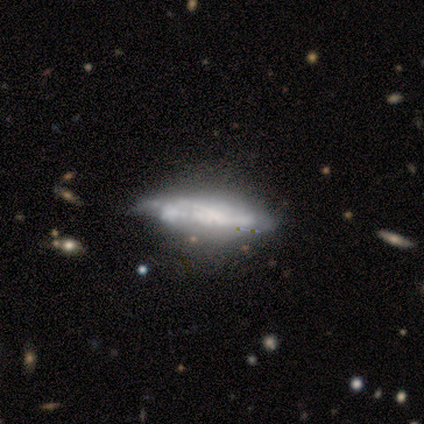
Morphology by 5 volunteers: smooth_or_featured: featured or disk (p=0.80) [alt: star or artifact p=0.20]
disk_edge_on: yes (p=0.50) [tied with: no p=0.50]
edge_on_bulge: none (p=0.50) [tied with: rounded p=0.50]
merging: major disturbance (p=0.75) [alt: minor disturbance p=0.25]